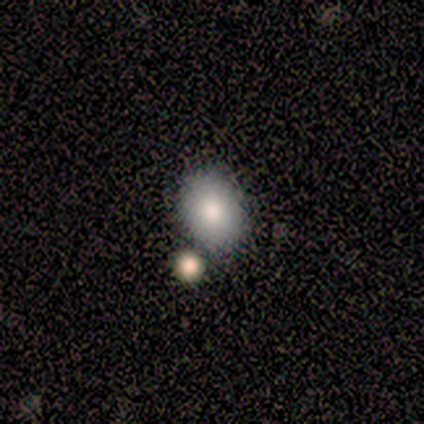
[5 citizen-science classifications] A smooth galaxy with no disk features (60%) that is in between round and cigar-shaped (67%).

Vote fractions:
- Smooth or featured? smooth: 60% / star or artifact: 40% / featured or disk: 0%
- How rounded? in between: 67% / round: 33% / cigar-shaped: 0%
- Merging? none: 67% / minor disturbance: 33% / major disturbance: 0% / merger: 0%